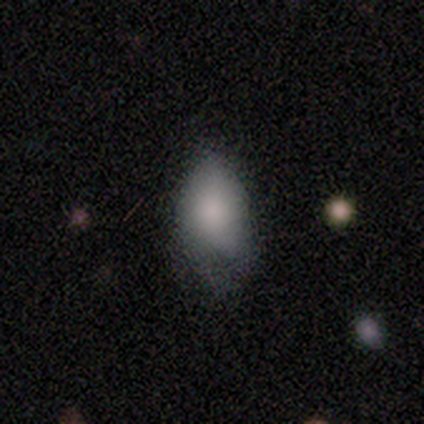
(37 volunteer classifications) Morphology: type=smooth (78%); roundness=in between (83%); merging=none (47%).